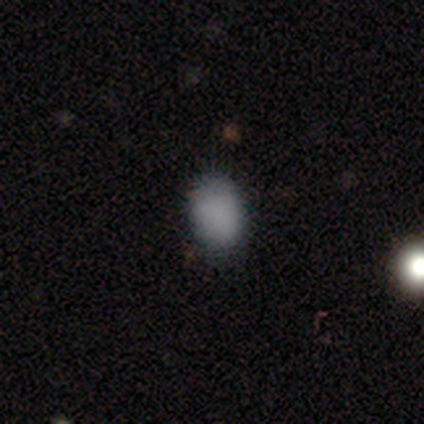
Smooth or featured: smooth — 100%
How rounded: in between — 80% (round — 20%)
Merging: none — 80% (major disturbance — 20%)